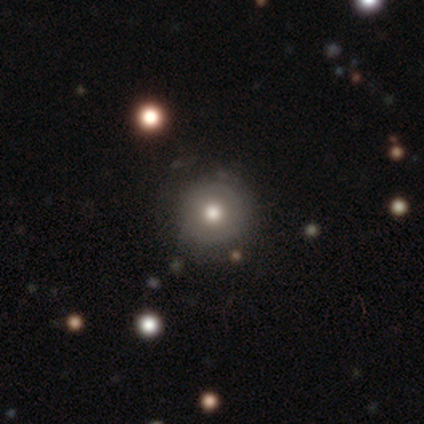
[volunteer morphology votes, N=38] A smooth galaxy with no disk features (63%) that is round (96%). Merging: none (69%).